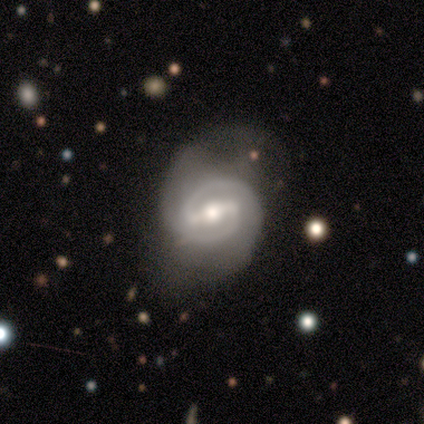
Smooth or featured? 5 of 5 (100%) said featured or disk. Edge-on disk? 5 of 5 (100%) said no. Bar? 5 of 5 (100%) said strong. Spiral arms? 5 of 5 (100%) said yes. Spiral winding? 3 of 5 (60%) said medium. Spiral arm count? 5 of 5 (100%) said 2. Bulge size? 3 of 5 (60%) said moderate. Merging? 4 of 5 (80%) said none.